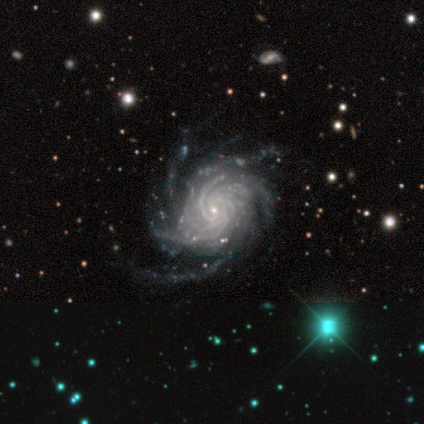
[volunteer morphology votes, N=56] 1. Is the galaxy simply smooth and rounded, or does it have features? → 98% featured or disk, 2% star or artifact, 0% smooth.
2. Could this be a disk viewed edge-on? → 96% no, 4% yes.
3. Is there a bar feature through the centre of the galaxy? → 74% no, 19% weak, 8% strong.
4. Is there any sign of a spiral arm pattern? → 100% yes, 0% no.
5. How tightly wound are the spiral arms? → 66% tight, 28% medium, 6% loose.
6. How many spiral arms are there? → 64% more than 4, 23% can't tell, 8% 4, 6% 3, 0% 1, 0% 2.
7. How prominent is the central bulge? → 89% small, 9% moderate, 2% none, 0% dominant, 0% large.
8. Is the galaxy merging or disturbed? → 55% none, 25% minor disturbance, 15% major disturbance, 5% merger.